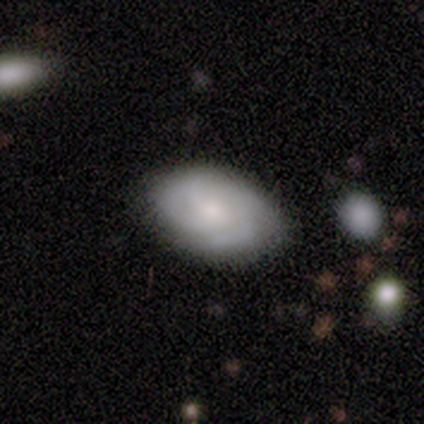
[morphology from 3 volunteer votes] A featured or disk galaxy (67%) with no bar (100%), 4 (50%, tied with can't tell) medium (100%) spiral arms (100%) and a moderate central bulge (50%, tied with small).

Vote fractions:
- Smooth or featured? featured or disk: 67% / smooth: 33% / star or artifact: 0%
- Edge-on disk? no: 100% / yes: 0%
- Bar? no: 100% / strong: 0% / weak: 0%
- Spiral arms? yes: 100% / no: 0%
- Spiral winding? medium: 100% / tight: 0% / loose: 0%
- Spiral arm count? 4: 50% (tied) / can't tell: 50% (tied) / 1: 0% / 2: 0% / 3: 0% / more than 4: 0%
- Bulge size? moderate: 50% (tied) / small: 50% (tied) / dominant: 0% / large: 0% / none: 0%
- Merging? none: 100% / minor disturbance: 0% / major disturbance: 0% / merger: 0%